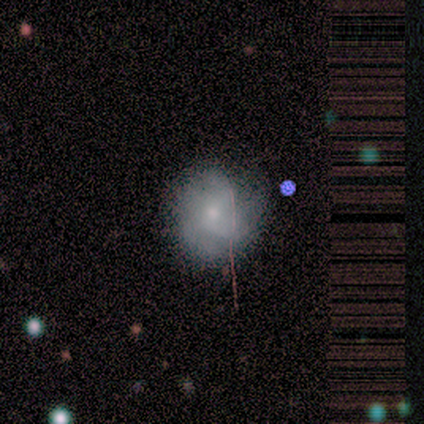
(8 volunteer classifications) Smooth or featured?
  - smooth: 38% * (tied)
  - featured or disk: 38% * (tied)
  - star or artifact: 25%
How rounded?
  - round: 67% *
  - in between: 33%
  - cigar-shaped: 0%
Merging?
  - none: 67% *
  - minor disturbance: 33%
  - major disturbance: 0%
  - merger: 0%